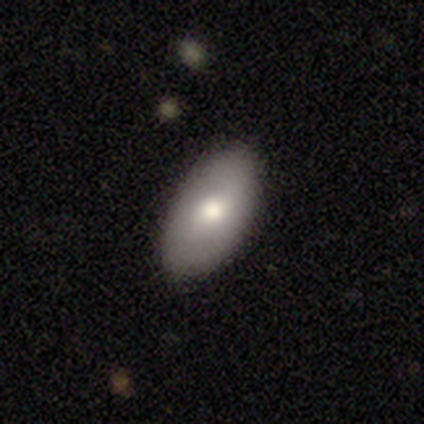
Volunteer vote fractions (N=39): smooth 62%, featured or disk 31%, star or artifact 8%. Down the decision tree: how rounded — in between (96%); merging — none (100%).